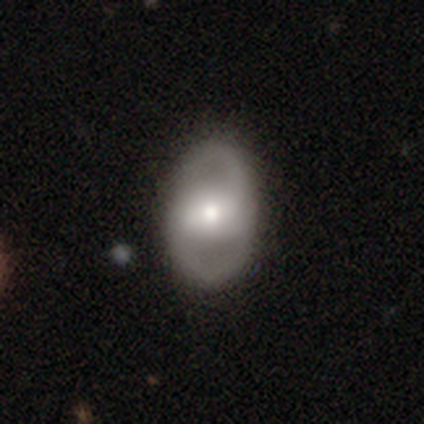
This is likely a featured or disk galaxy (74%). It is clearly not viewed edge-on (89%). Bar: marginally strong (36%, tied with weak). Spiral arm pattern: possibly yes (52%). Spiral arm count: clearly 2 (85%). Spiral winding: marginally medium (38%, tied with loose). Central bulge: possibly moderate (52%). Merging: likely none (78%).